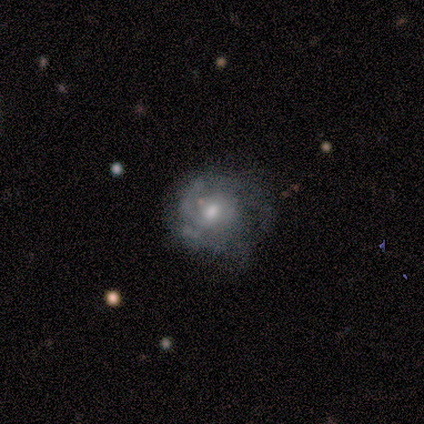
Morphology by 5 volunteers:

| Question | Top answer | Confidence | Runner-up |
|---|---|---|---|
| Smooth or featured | featured or disk | 80% | star or artifact (20%) |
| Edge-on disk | no | 100% | — |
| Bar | no | 75% | weak (25%) |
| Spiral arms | yes | 100% | — |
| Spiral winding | medium | 75% | tight (25%) |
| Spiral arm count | can't tell | 75% | 1 (25%) |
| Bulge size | moderate | 75% | small (25%) |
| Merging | none | 50% | tied: minor disturbance (50%) |